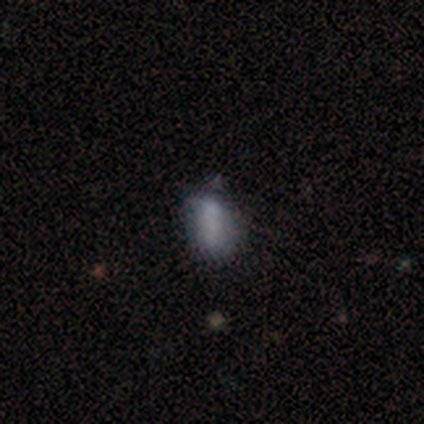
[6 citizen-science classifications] Smooth or featured? 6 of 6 (100%) said smooth. How rounded? 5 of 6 (83%) said in between. Merging? 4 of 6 (67%) said none.